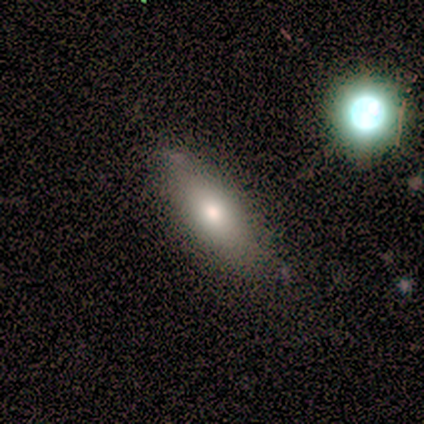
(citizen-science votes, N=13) Q: Smooth or featured?
A: smooth (85%); runner-up: featured or disk (15%)
Q: How rounded?
A: in between (91%); runner-up: cigar-shaped (9%)
Q: Merging?
A: none (85%); runner-up: minor disturbance (8%)